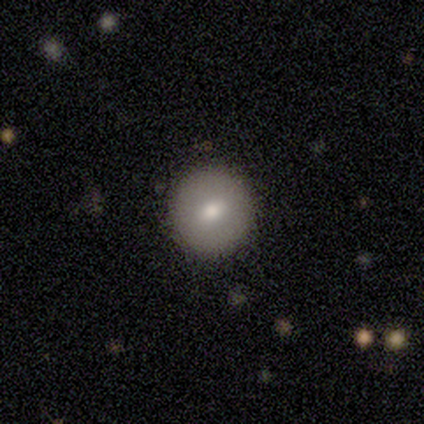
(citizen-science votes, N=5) This appears to be a smooth galaxy with no disk features (100%) that is round (100%). Merging: none (100%).